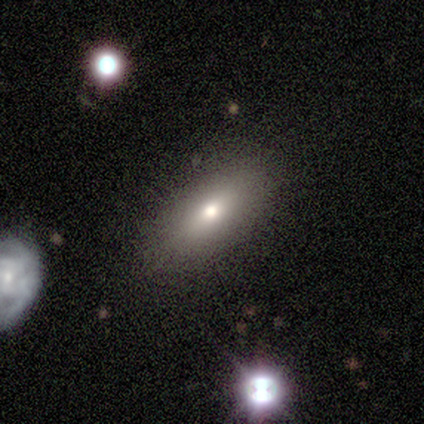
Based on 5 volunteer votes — A smooth galaxy with no disk features (80%) that is in between round and cigar-shaped (100%). Merging: none (100%).